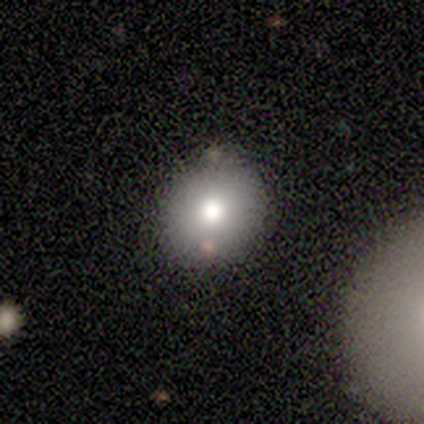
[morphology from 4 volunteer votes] This is likely a smooth galaxy (75%). How rounded: clearly round (100%). Merging: clearly none (100%).